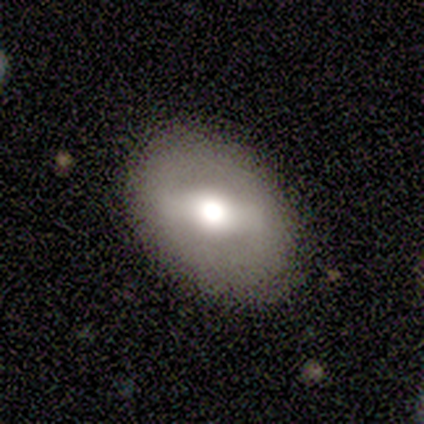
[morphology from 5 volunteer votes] Overall: smooth (60%; featured or disk 40%). How rounded: in between (100%). Merging: none (100%).